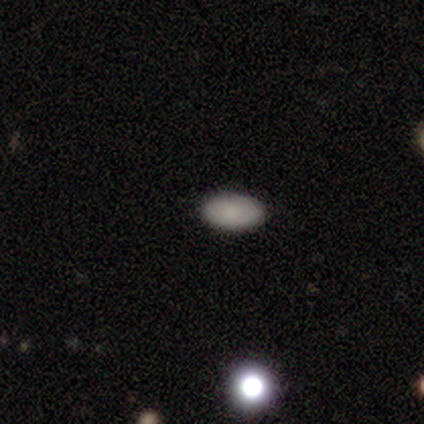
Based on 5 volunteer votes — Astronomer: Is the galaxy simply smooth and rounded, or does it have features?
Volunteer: smooth — 80%.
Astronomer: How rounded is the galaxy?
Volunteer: in between — 100%.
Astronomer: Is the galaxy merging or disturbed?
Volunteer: none — 80%.